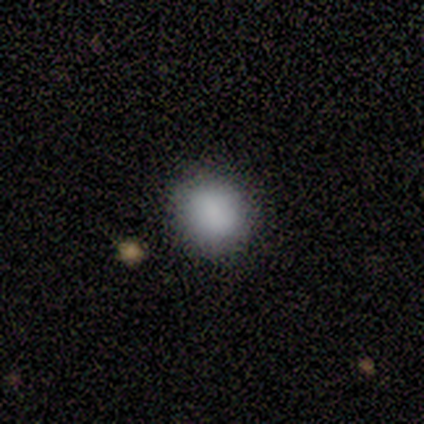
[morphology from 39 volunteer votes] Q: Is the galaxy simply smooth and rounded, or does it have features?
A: smooth — 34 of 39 (87%).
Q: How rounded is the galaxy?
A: round — 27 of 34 (79%).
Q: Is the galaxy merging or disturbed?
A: none — 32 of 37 (86%).